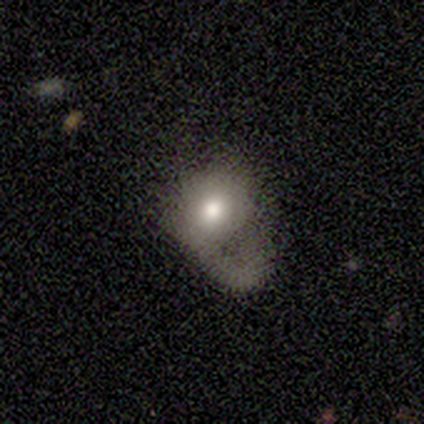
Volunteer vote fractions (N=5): Smooth or featured?
  - featured or disk: 80% *
  - smooth: 20%
  - star or artifact: 0%
Edge-on disk?
  - no: 100% *
  - yes: 0%
Bar?
  - no: 100% *
  - strong: 0%
  - weak: 0%
Spiral arms?
  - no: 100% *
  - yes: 0%
Bulge size?
  - moderate: 50% *
  - large: 25%
  - small: 25%
  - dominant: 0%
  - none: 0%
Merging?
  - major disturbance: 80% *
  - merger: 20%
  - none: 0%
  - minor disturbance: 0%